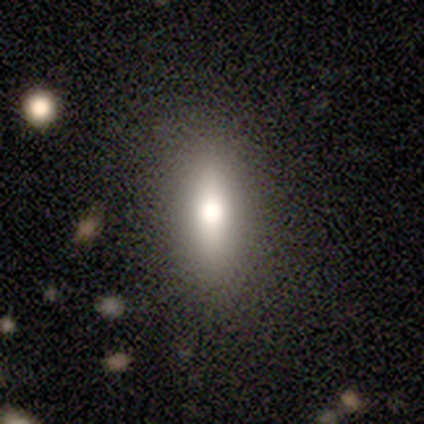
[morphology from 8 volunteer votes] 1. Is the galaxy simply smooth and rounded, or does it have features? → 62% smooth, 25% featured or disk, 12% star or artifact.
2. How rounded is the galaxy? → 80% cigar-shaped, 20% in between, 0% round.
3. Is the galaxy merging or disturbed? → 86% none, 14% minor disturbance, 0% major disturbance, 0% merger.